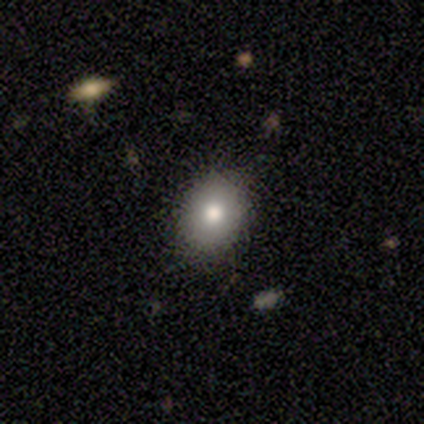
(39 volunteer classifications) A smooth galaxy with no disk features (77%) that is in between round and cigar-shaped (57%).

Vote fractions:
- Smooth or featured? smooth: 77% / featured or disk: 13% / star or artifact: 10%
- How rounded? in between: 57% / round: 43% / cigar-shaped: 0%
- Merging? none: 91% / major disturbance: 9% / minor disturbance: 0% / merger: 0%